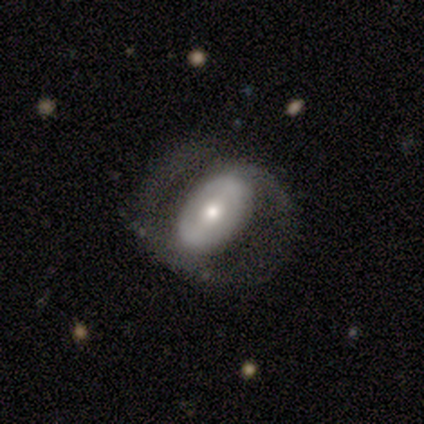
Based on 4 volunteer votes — Overall: featured or disk (50%; smooth 25%). Edge-on disk: no (100%). Bar: no (100%). Spiral arms: yes (50%, tied with no). Spiral arm count: 2 (100%). Spiral winding: loose (100%). Bulge size: moderate (100%). Merging: none (67%; major disturbance 33%).